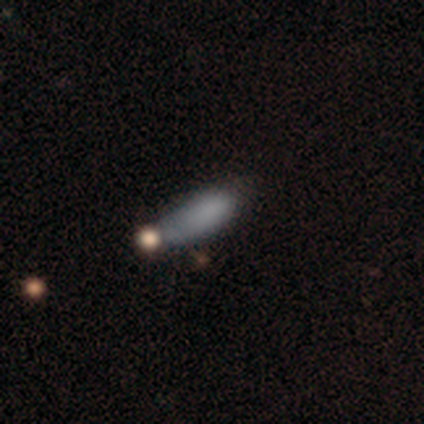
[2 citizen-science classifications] Smooth or featured: smooth — 100%
How rounded: in between — 100%
Merging: minor disturbance — 50% (tied with major disturbance — 50%)